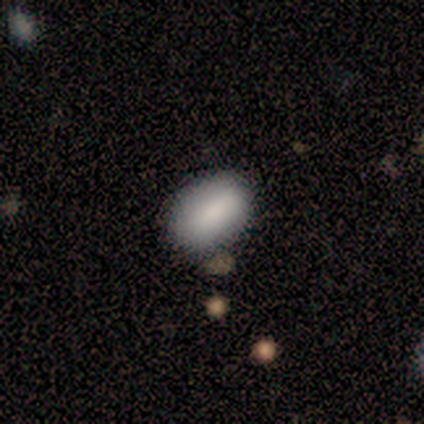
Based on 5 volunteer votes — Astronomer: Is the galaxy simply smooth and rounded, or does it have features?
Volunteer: smooth — 100%.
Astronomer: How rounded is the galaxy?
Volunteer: in between — 100%.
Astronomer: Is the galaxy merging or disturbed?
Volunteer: none — 40%, tied with minor disturbance at 40%.